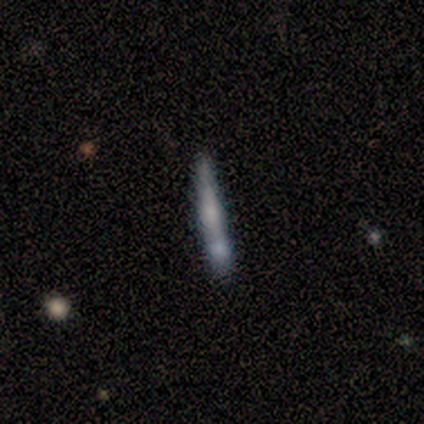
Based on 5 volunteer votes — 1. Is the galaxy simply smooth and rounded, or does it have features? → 40% smooth (tied), 40% featured or disk (tied), 20% star or artifact.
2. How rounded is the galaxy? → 100% cigar-shaped, 0% round, 0% in between.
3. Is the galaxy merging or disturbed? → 50% none, 25% major disturbance, 25% merger, 0% minor disturbance.